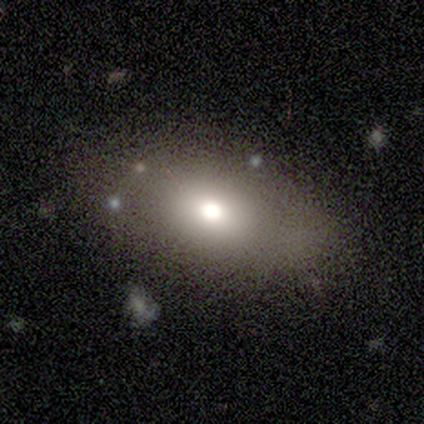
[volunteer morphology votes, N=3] Smooth or featured? 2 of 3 (67%) said star or artifact.